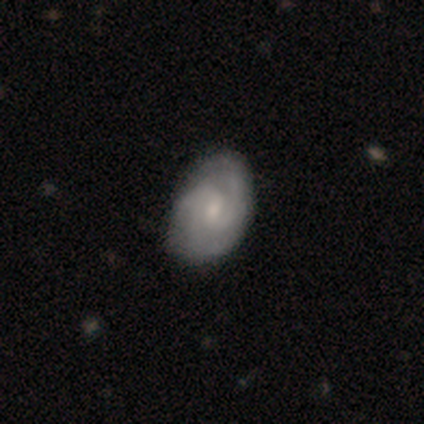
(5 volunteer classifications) smooth 80%, featured or disk 20%, star or artifact 0%. Down the decision tree: how rounded — in between (100%); merging — none (60%).